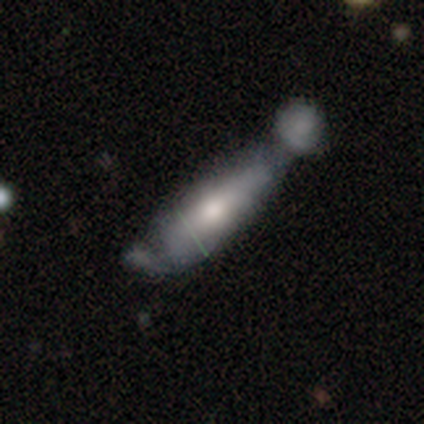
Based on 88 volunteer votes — Overall: smooth (51%; featured or disk 41%). How rounded: cigar-shaped (69%). Merging: merger (58%; minor disturbance 20%).